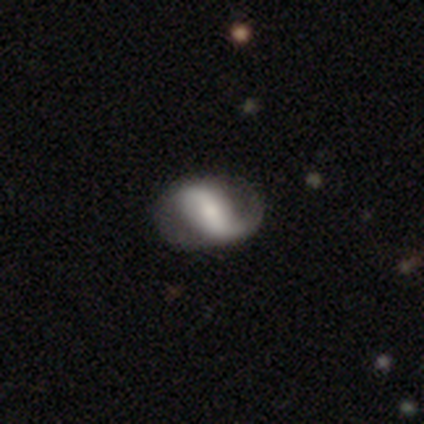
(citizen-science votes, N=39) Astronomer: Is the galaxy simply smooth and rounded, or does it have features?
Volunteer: featured or disk — 77%.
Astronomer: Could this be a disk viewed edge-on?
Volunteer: no — 97%.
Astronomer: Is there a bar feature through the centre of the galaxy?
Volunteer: strong — 45% (runner-up: weak, 34%).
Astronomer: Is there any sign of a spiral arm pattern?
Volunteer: yes — 93%.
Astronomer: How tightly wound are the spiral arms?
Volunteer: medium — 48% (runner-up: loose, 41%).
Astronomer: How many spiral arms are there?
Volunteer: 2 — 78%.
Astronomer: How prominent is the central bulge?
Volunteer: small — 38% (runner-up: moderate, 28%).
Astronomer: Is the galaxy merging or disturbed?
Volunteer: none — 62%.